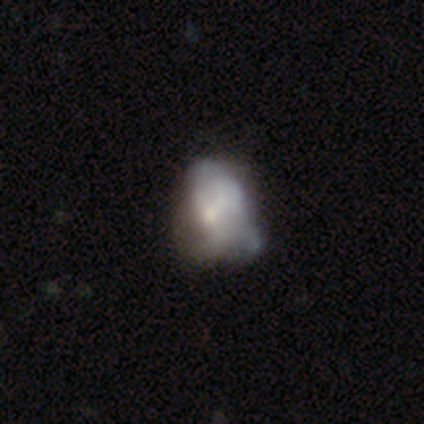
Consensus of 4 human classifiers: Q: Smooth or featured?
A: featured or disk (75%); runner-up: smooth (25%)
Q: Edge-on disk?
A: no (100%)
Q: Bar?
A: no (67%); runner-up: weak (33%)
Q: Spiral arms?
A: no (100%)
Q: Bulge size?
A: small (67%); runner-up: moderate (33%)
Q: Merging?
A: major disturbance (50%); runner-up: minor disturbance (25%)